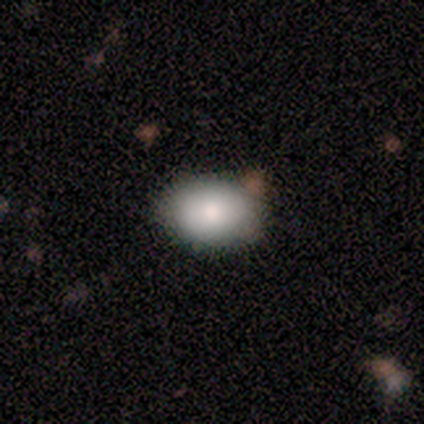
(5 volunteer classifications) Q: Smooth or featured?
A: smooth (100%)
Q: How rounded?
A: in between (80%); runner-up: round (20%)
Q: Merging?
A: none (80%); runner-up: merger (20%)